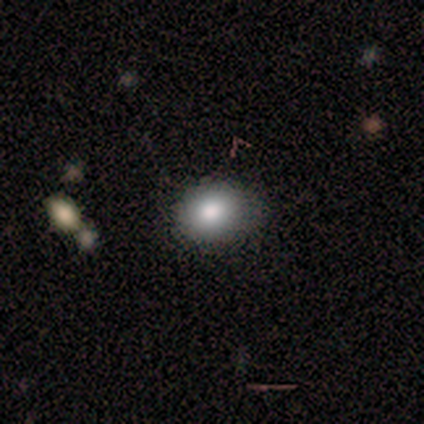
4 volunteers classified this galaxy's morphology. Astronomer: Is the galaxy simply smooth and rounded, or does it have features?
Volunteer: smooth — 75%.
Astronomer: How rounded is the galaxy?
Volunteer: in between — 100%.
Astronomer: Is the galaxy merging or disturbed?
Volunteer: none — 67%.